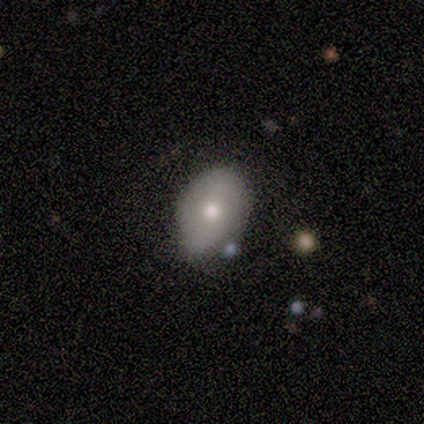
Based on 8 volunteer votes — Smooth or featured? 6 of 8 (75%) said smooth. How rounded? 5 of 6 (83%) said in between. Merging? 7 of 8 (88%) said none.